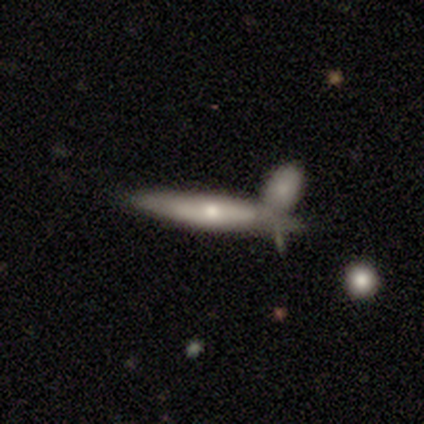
This is likely a smooth galaxy (75%). How rounded: clearly cigar-shaped (100%). Merging: clearly merger (100%).